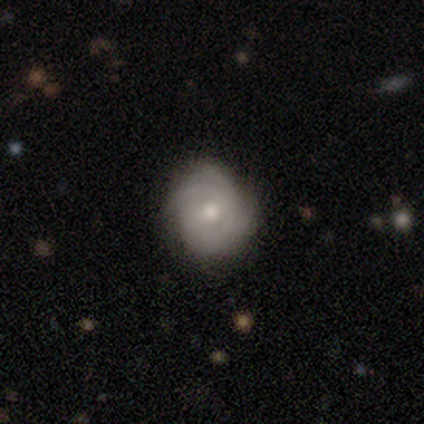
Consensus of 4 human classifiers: A featured or disk galaxy (100%) with a weak bar (75%), tight (100%) spiral arms (100%) and a moderate central bulge (75%).

Vote fractions:
- Smooth or featured? featured or disk: 100% / smooth: 0% / star or artifact: 0%
- Edge-on disk? no: 100% / yes: 0%
- Bar? weak: 75% / no: 25% / strong: 0%
- Spiral arms? yes: 100% / no: 0%
- Spiral winding? tight: 100% / medium: 0% / loose: 0%
- Spiral arm count? can't tell: 50% / 2: 25% / 3: 25% / 1: 0% / 4: 0% / more than 4: 0%
- Bulge size? moderate: 75% / small: 25% / dominant: 0% / large: 0% / none: 0%
- Merging? none: 100% / minor disturbance: 0% / major disturbance: 0% / merger: 0%